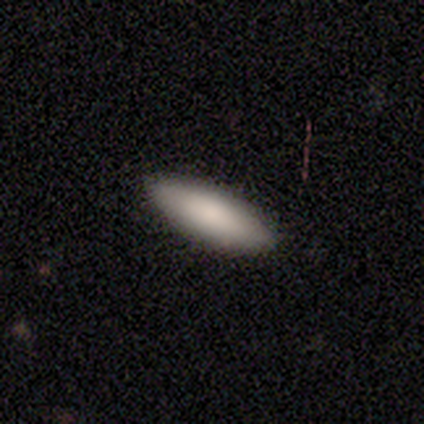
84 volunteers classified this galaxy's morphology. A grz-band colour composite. It shows a smooth galaxy with no disk features (87%) that is in between round and cigar-shaped (52%). Merging: none (94%).